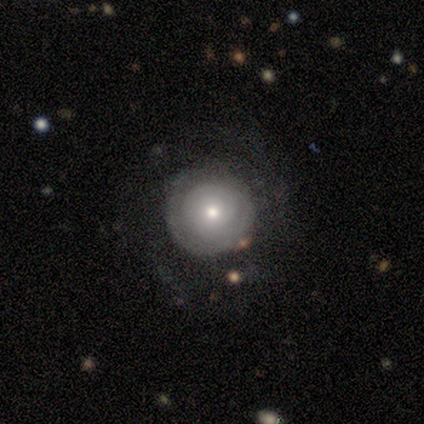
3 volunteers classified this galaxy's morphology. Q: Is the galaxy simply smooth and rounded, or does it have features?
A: smooth — 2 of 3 (67%).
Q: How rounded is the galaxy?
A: round — 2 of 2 (100%).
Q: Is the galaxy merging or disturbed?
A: none — 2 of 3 (67%).